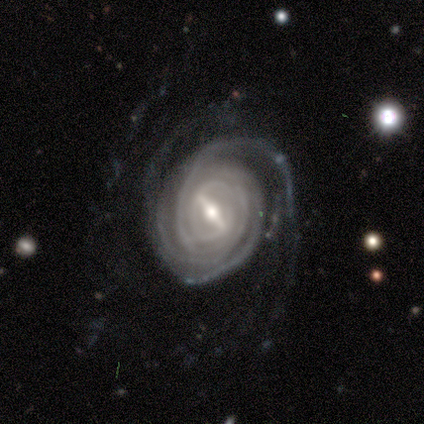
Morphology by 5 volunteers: Q: Smooth or featured?
A: featured or disk (100%)
Q: Edge-on disk?
A: no (100%)
Q: Bar?
A: strong (80%); runner-up: weak (20%)
Q: Spiral arms?
A: yes (80%); runner-up: no (20%)
Q: Spiral winding?
A: tight (100%)
Q: Spiral arm count?
A: more than 4 (50%); runner-up: 3 (25%)
Q: Bulge size?
A: small (60%); runner-up: moderate (40%)
Q: Merging?
A: none (60%); runner-up: minor disturbance (40%)